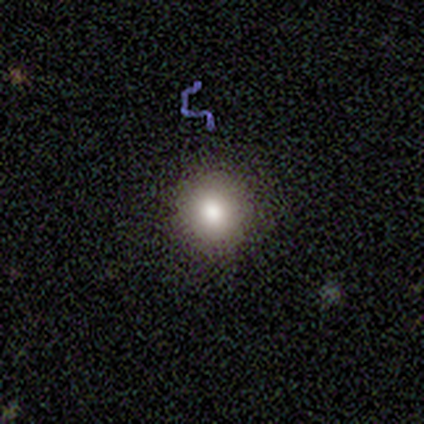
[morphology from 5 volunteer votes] Volunteers were most divided on "smooth or featured": smooth: 60%, star or artifact: 40%, featured or disk: 0%. More confident: how rounded — round (100%); merging — none (67%).